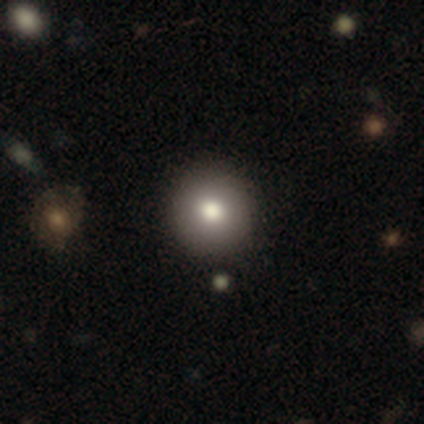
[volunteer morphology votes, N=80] Smooth or featured: smooth — 82% (featured or disk — 11%)
How rounded: round — 97% (in between — 3%)
Merging: none — 47% (minor disturbance — 3%)